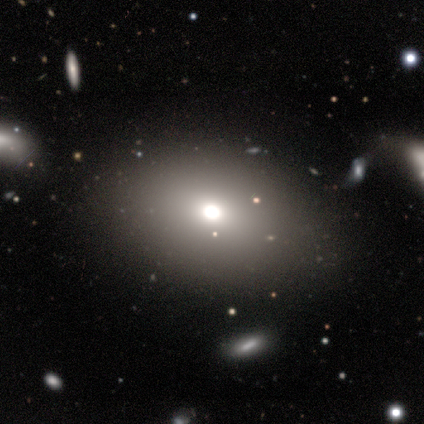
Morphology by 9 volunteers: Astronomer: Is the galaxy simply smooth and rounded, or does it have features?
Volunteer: star or artifact — 44% (runner-up: smooth, 33%).